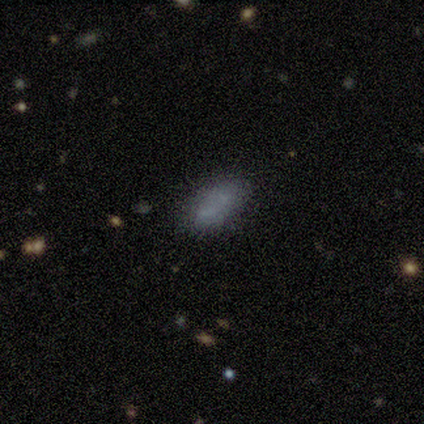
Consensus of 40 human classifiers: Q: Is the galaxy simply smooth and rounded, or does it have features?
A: smooth — 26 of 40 (65%).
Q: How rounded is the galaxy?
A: in between — 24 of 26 (92%).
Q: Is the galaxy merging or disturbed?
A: none — 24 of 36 (67%).